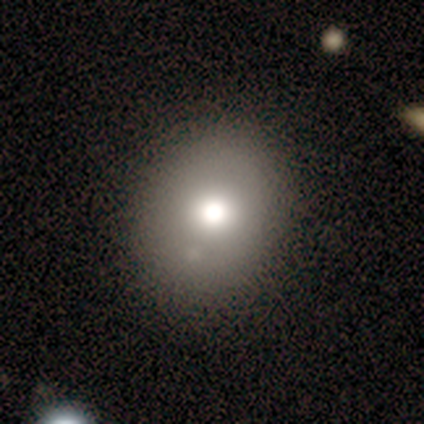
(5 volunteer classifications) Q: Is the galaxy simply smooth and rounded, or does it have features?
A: smooth — 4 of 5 (80%).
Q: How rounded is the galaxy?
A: round — 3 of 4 (75%).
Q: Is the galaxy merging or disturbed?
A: none — 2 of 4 (50%, tied with minor disturbance).